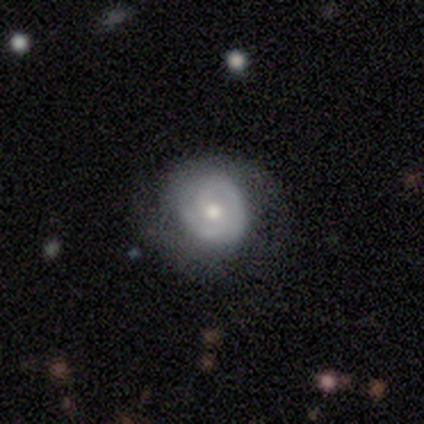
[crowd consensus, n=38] smooth-or-featured: featured or disk: 68% | smooth: 32% | star or artifact: 0%
  disk-edge-on: no: 100% | yes: 0%
    bar: no: 77% | weak: 19% | strong: 4%
    has-spiral-arms: yes: 81% | no: 19%
      spiral-winding: tight: 81% | medium: 14% | loose: 5%
      spiral-arm-count: 2: 62% | 1: 24% | can't tell: 14% | 3: 0% | 4: 0% | more than 4: 0%
    bulge-size: moderate: 58% | small: 42% | dominant: 0% | large: 0% | none: 0%
  merging: none: 61% | minor disturbance: 26% | major disturbance: 13% | merger: 0%